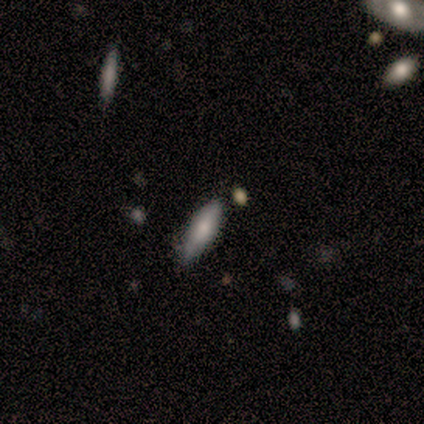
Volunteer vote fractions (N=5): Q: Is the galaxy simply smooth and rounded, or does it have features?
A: smooth — 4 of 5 (80%).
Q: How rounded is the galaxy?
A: in between — 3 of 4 (75%).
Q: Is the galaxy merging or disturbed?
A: none — 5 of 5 (100%).